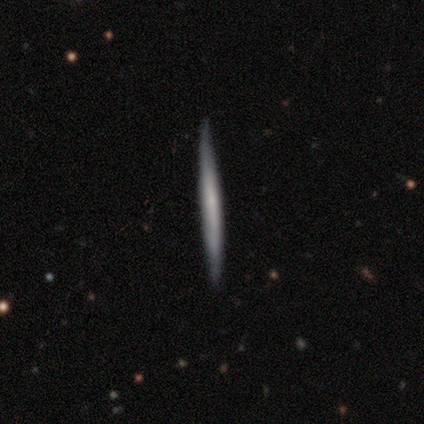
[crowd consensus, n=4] A smooth galaxy with no disk features (50%, tied with featured or disk) that is cigar-shaped (100%). Merging: none (100%).